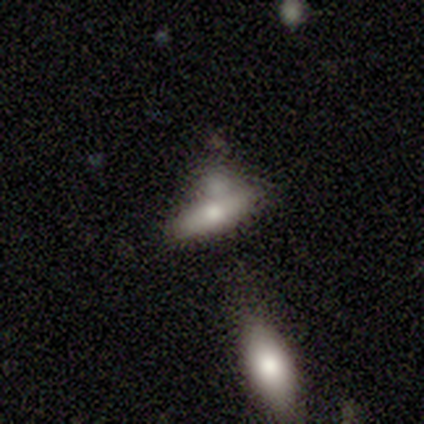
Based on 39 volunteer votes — A smooth galaxy with no disk features (56%) that is in between round and cigar-shaped (68%).

Vote fractions:
- Smooth or featured? smooth: 56% / featured or disk: 36% / star or artifact: 8%
- How rounded? in between: 68% / cigar-shaped: 32% / round: 0%
- Merging? none: 50% / merger: 25% / minor disturbance: 19% / major disturbance: 6%